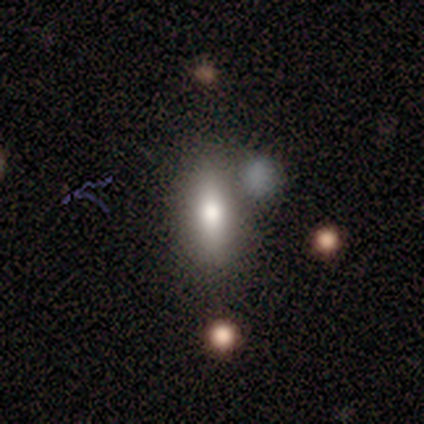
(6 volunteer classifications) A smooth galaxy with no disk features (50%) that is in between round and cigar-shaped (67%).

Vote fractions:
- Smooth or featured? smooth: 50% / star or artifact: 33% / featured or disk: 17%
- How rounded? in between: 67% / cigar-shaped: 33% / round: 0%
- Merging? none: 75% / merger: 25% / minor disturbance: 0% / major disturbance: 0%